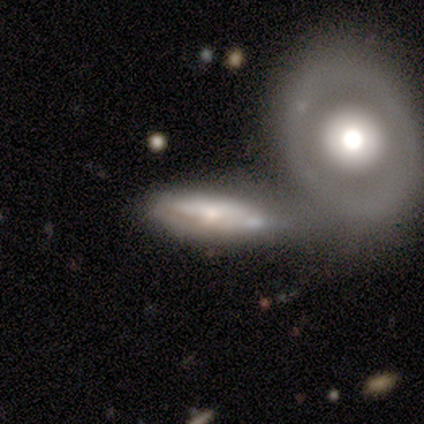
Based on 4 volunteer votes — A featured or disk galaxy (75%) viewed edge-on (67%) with a boxy central bulge (50%, tied with rounded). Merging: merger (67%).